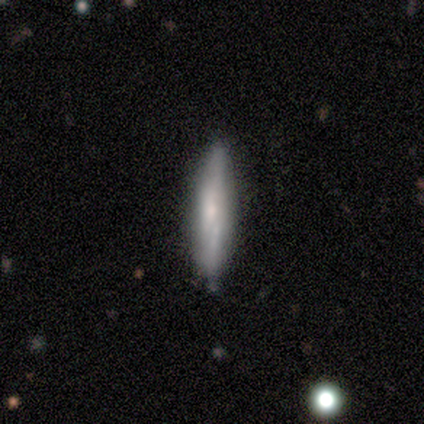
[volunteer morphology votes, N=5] smooth_or_featured: smooth (p=0.60) [alt: featured or disk p=0.40]
how_rounded: cigar-shaped (p=1.00)
merging: none (p=0.60) [alt: minor disturbance p=0.40]